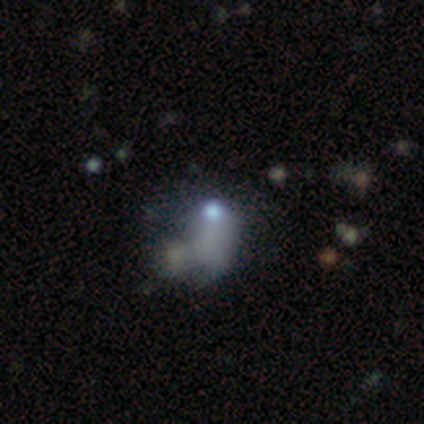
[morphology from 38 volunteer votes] Overall: smooth (39%; featured or disk 32%). How rounded: in between (87%). Merging: major disturbance (44%; merger 22%).